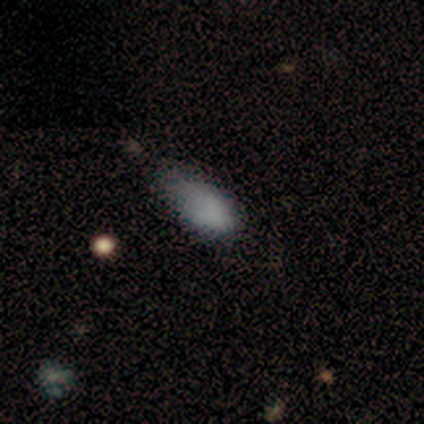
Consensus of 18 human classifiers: Smooth or featured? smooth (94%)
How rounded? in between (100%)
Merging? none (47%)